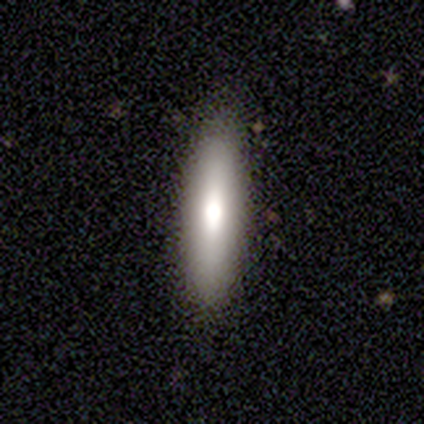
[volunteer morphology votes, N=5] type=smooth (80%); roundness=cigar-shaped (100%); merging=none (60%).